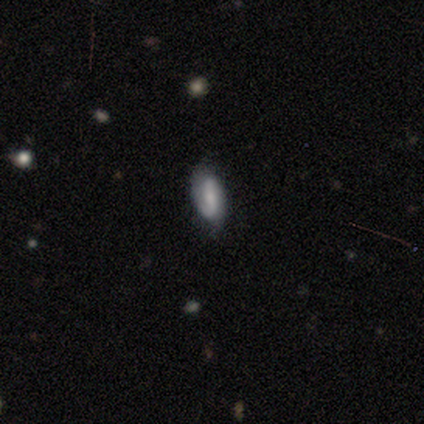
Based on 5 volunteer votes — Morphology: type=featured or disk (60%); edge-on=no (100%); bar=strong (67%); spiral arms=yes (100%); winding=tight (33%, tied with medium and loose); arm count=2 (100%); bulge=moderate (67%); merging=minor disturbance (60%).